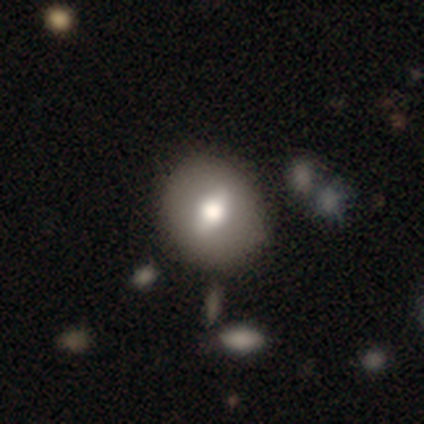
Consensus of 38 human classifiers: Volunteers were most divided on "smooth or featured": smooth: 55%, featured or disk: 37%, star or artifact: 8%. More confident: how rounded — round (71%); merging — none (51%).